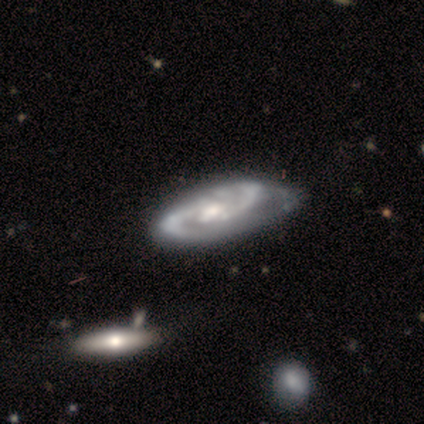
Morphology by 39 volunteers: Smooth or featured? featured or disk (92%)
Edge-on disk? no (97%)
Bar? no (54%)
Spiral arms? yes (94%)
Spiral winding? medium (70%)
Spiral arm count? 2 (88%)
Bulge size? moderate (63%)
Merging? none (34%)